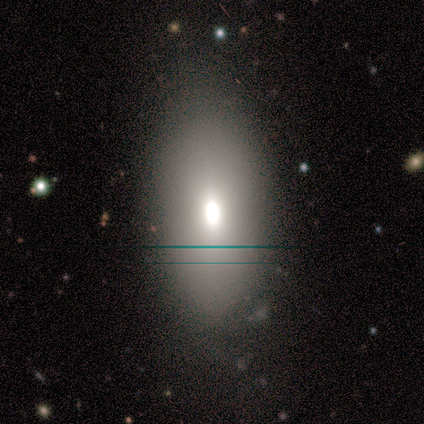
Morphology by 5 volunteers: A smooth galaxy with no disk features (60%) that is round (33%, tied with in between and cigar-shaped).

Vote fractions:
- Smooth or featured? smooth: 60% / star or artifact: 40% / featured or disk: 0%
- How rounded? round: 33% (tied) / in between: 33% (tied) / cigar-shaped: 33% (tied)
- Merging? none: 100% / minor disturbance: 0% / major disturbance: 0% / merger: 0%